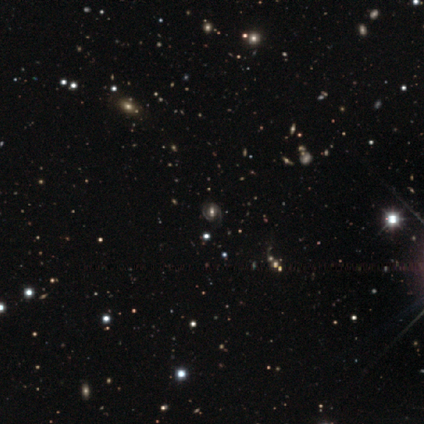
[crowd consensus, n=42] Volunteers were most divided on "bar" (2-way tie): strong: 38%, no: 38%, weak: 23%. More confident: edge-on disk — no (100%); merging — none (93%); spiral arms — yes (85%); spiral arm count — 2 (64%); smooth or featured — featured or disk (62%); bulge size — moderate (62%); spiral winding — medium (50%).